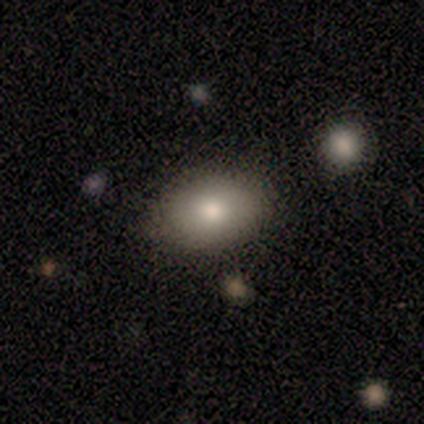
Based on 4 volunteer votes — Q: Smooth or featured?
A: smooth (100%)
Q: How rounded?
A: in between (75%); runner-up: round (25%)
Q: Merging?
A: none (75%); runner-up: minor disturbance (25%)